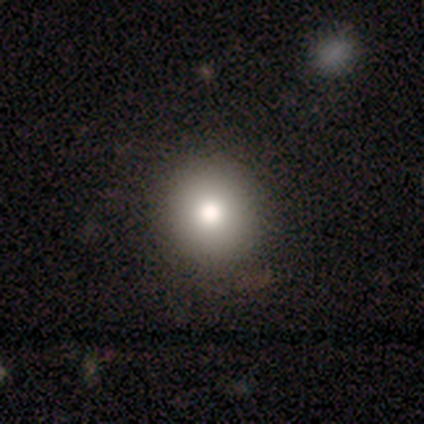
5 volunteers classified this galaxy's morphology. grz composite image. It shows a smooth galaxy with no disk features (80%) that is round (100%). Merging: none (100%).